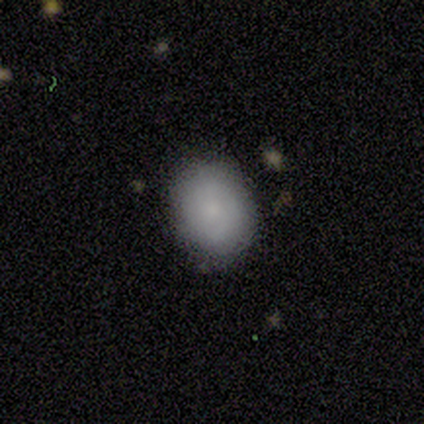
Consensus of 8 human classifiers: A smooth galaxy with no disk features (75%) that is round (50%, tied with in between).

Vote fractions:
- Smooth or featured? smooth: 75% / featured or disk: 25% / star or artifact: 0%
- How rounded? round: 50% (tied) / in between: 50% (tied) / cigar-shaped: 0%
- Merging? none: 100% / minor disturbance: 0% / major disturbance: 0% / merger: 0%